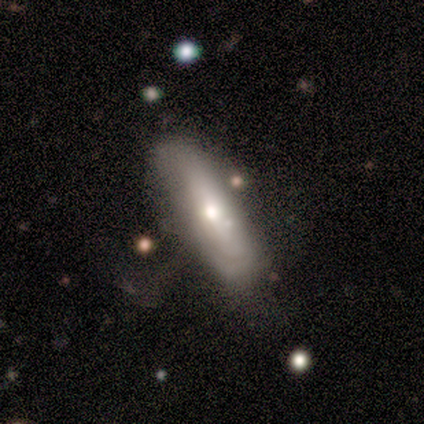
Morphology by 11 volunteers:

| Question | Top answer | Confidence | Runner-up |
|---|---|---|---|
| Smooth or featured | smooth | 55% | featured or disk (45%) |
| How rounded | in between | 50% | tied: cigar-shaped (50%) |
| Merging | minor disturbance | 73% | none (18%) |